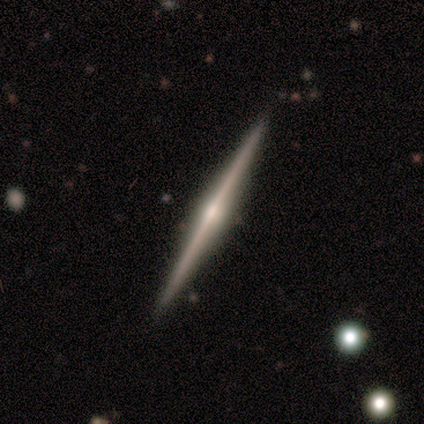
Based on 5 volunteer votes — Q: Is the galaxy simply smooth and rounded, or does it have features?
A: featured or disk — 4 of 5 (80%).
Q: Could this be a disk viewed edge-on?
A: yes — 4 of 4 (100%).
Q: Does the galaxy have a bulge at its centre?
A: rounded — 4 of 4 (100%).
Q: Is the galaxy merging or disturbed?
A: none — 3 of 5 (60%).